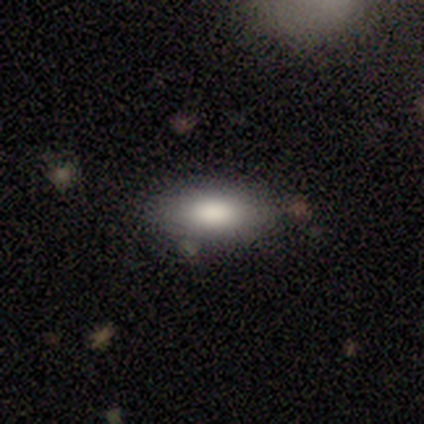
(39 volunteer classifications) Smooth or featured?
  - smooth: 79% *
  - featured or disk: 18%
  - star or artifact: 3%
How rounded?
  - in between: 87% *
  - cigar-shaped: 10%
  - round: 3%
Merging?
  - none: 87% *
  - minor disturbance: 11%
  - merger: 3%
  - major disturbance: 0%